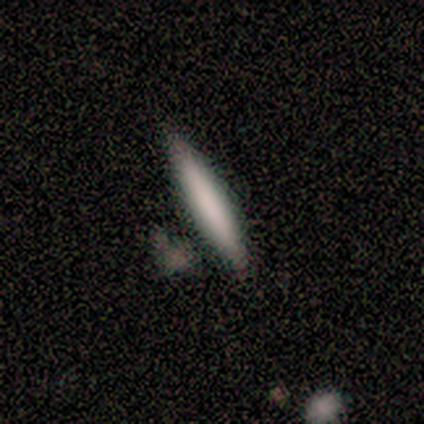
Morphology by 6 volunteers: Smooth or featured? smooth (50%, tied with featured or disk)
How rounded? cigar-shaped (100%)
Merging? none (100%)